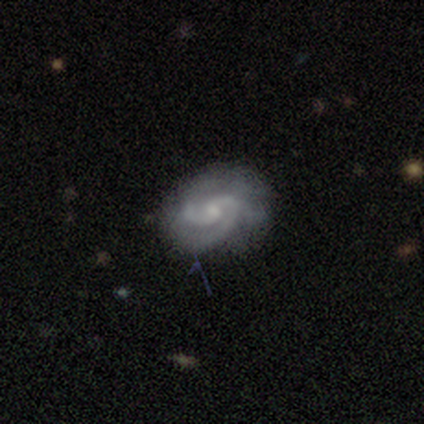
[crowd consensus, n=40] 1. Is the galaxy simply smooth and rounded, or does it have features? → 92% featured or disk, 5% star or artifact, 2% smooth.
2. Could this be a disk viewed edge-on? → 97% no, 3% yes.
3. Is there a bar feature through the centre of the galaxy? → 53% weak, 44% no, 3% strong.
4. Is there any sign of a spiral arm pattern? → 97% yes, 3% no.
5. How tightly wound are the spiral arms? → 46% tight (tied), 46% medium (tied), 9% loose.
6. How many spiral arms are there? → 77% 2, 14% 3, 6% can't tell, 3% 1, 0% 4, 0% more than 4.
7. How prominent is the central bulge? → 64% small, 31% moderate, 3% large, 3% none, 0% dominant.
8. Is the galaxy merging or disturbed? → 76% none, 24% minor disturbance, 0% major disturbance, 0% merger.